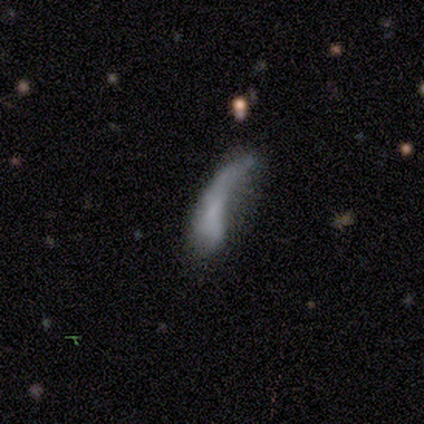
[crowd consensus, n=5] smooth 80%, featured or disk 20%, star or artifact 0%. Down the decision tree: how rounded — in between (75%); merging — none (40%, tied with major disturbance).